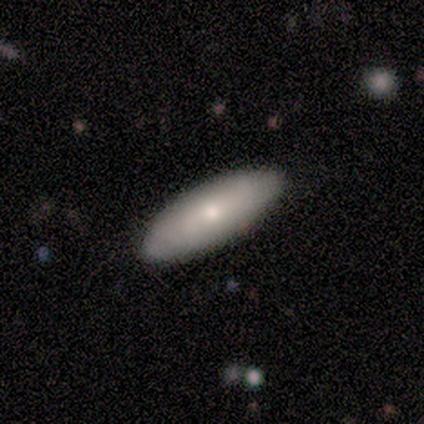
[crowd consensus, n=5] Smooth or featured? smooth (60%)
How rounded? in between (67%)
Merging? none (100%)